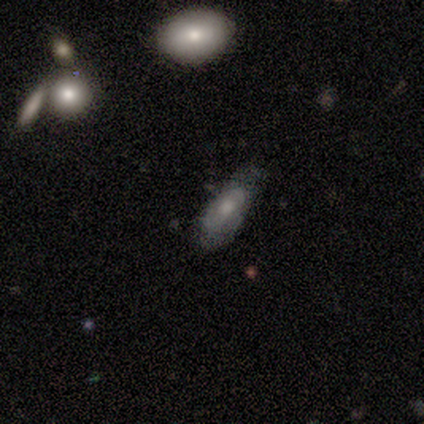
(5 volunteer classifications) Volunteers were most divided on "bar" (2-way tie): weak: 50%, no: 50%, strong: 0%; "spiral arms" (2-way tie): yes: 50%, no: 50%; "bulge size" (2-way tie): moderate: 50%, small: 50%, dominant: 0%, large: 0%, none: 0%. More confident: spiral winding — medium (100%); spiral arm count — 2 (100%); edge-on disk — no (67%); smooth or featured — featured or disk (60%); merging — minor disturbance (60%).